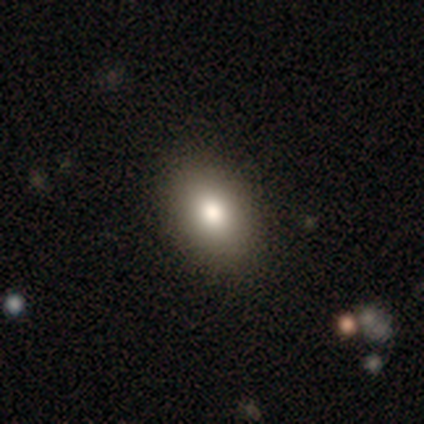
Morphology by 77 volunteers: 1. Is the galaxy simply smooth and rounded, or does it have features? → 87% smooth, 6% featured or disk, 6% star or artifact.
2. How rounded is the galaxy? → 87% in between, 13% round, 0% cigar-shaped.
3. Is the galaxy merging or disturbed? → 49% none, 1% merger, 0% minor disturbance, 0% major disturbance.